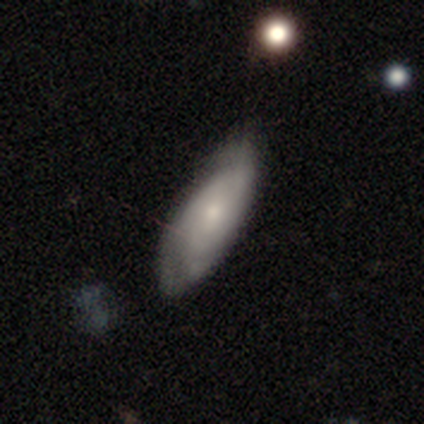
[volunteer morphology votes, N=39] Q: Smooth or featured?
A: featured or disk (54%); runner-up: smooth (44%)
Q: Edge-on disk?
A: no (86%); runner-up: yes (14%)
Q: Bar?
A: no (72%); runner-up: weak (22%)
Q: Spiral arms?
A: yes (94%); runner-up: no (6%)
Q: Spiral winding?
A: tight (71%); runner-up: medium (24%)
Q: Spiral arm count?
A: can't tell (59%); runner-up: 2 (35%)
Q: Bulge size?
A: small (61%); runner-up: moderate (28%)
Q: Merging?
A: none (34%); runner-up: minor disturbance (29%)